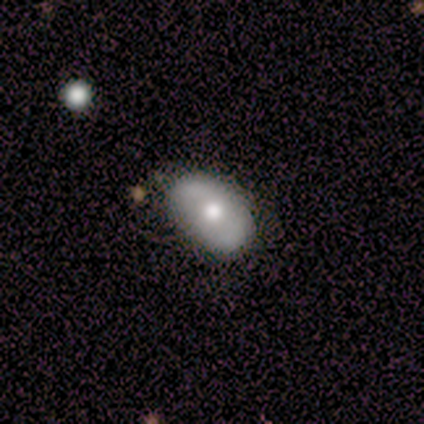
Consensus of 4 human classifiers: A smooth galaxy with no disk features (100%) that is in between round and cigar-shaped (100%). Merging: none (75%).